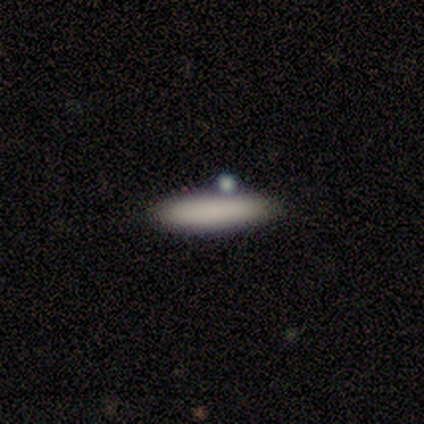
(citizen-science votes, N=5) Overall: smooth (100%). How rounded: cigar-shaped (100%). Merging: none (60%; minor disturbance 20%).